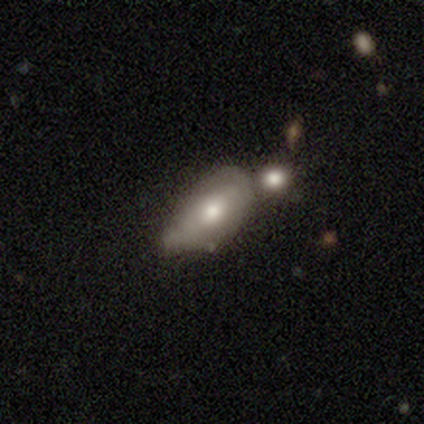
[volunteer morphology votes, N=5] smooth-or-featured: smooth: 60% | featured or disk: 40% | star or artifact: 0%
  how-rounded: in between: 100% | round: 0% | cigar-shaped: 0%
  merging: none: 40% (tied) | minor disturbance: 40% (tied) | major disturbance: 20% | merger: 0%